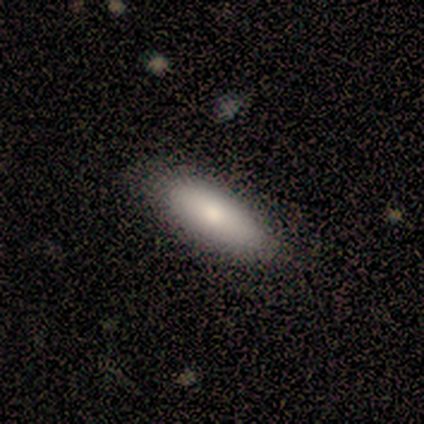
Volunteers were most divided on "merging" (2-way tie): none: 50%, minor disturbance: 50%, major disturbance: 0%, merger: 0%. More confident: smooth or featured — smooth (100%); how rounded — cigar-shaped (75%).